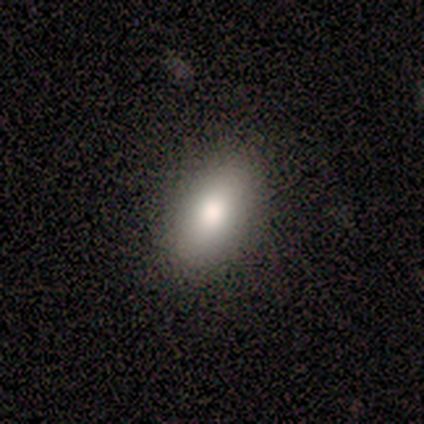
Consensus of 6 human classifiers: Morphology: type=smooth (83%); roundness=in between (80%); merging=none (100%).